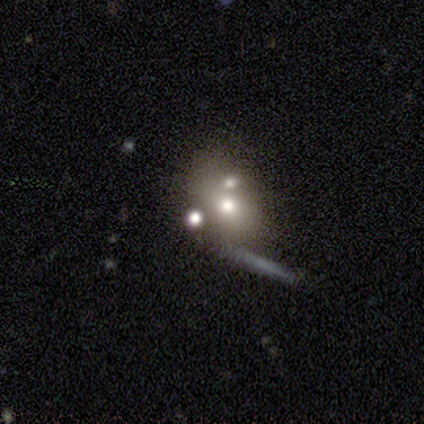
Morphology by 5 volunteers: smooth 60%, featured or disk 40%, star or artifact 0%. Down the decision tree: how rounded — in between (67%); merging — none (60%).